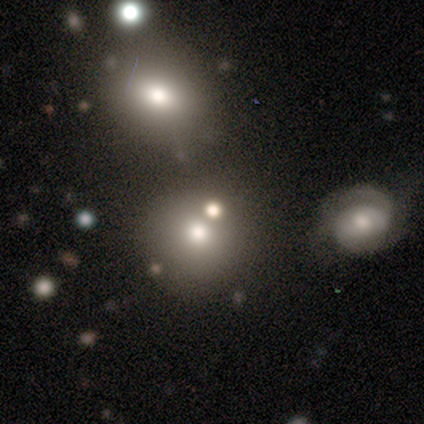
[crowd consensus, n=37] Smooth or featured?
  - smooth: 65% *
  - star or artifact: 19%
  - featured or disk: 16%
How rounded?
  - round: 92% *
  - in between: 8%
  - cigar-shaped: 0%
Merging?
  - none: 37% *
  - merger: 27%
  - minor disturbance: 20%
  - major disturbance: 3%